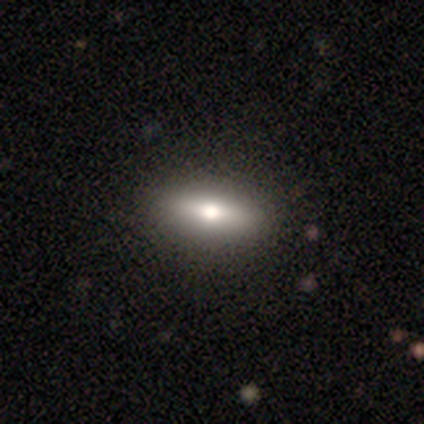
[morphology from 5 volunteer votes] Smooth or featured?
  - smooth: 80% *
  - featured or disk: 20%
  - star or artifact: 0%
How rounded?
  - in between: 75% *
  - cigar-shaped: 25%
  - round: 0%
Merging?
  - none: 100% *
  - minor disturbance: 0%
  - major disturbance: 0%
  - merger: 0%